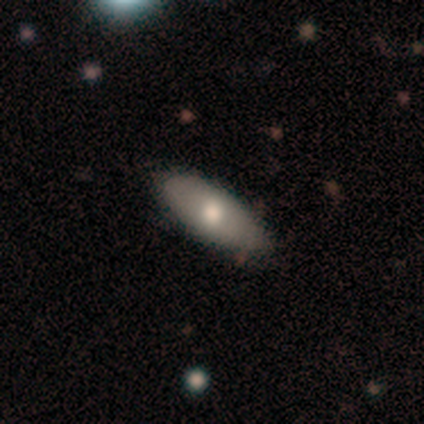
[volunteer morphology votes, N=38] type=smooth (68%); roundness=in between (73%); merging=none (85%).